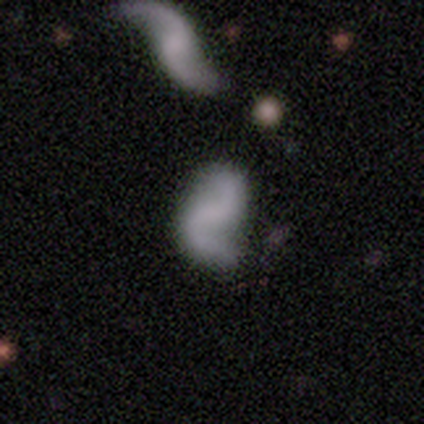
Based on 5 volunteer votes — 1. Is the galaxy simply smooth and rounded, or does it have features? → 80% featured or disk, 20% star or artifact, 0% smooth.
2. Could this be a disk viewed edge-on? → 100% no, 0% yes.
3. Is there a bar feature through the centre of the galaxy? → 75% no, 25% strong, 0% weak.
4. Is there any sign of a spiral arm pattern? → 50% yes (tied), 50% no (tied).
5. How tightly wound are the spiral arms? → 50% medium (tied), 50% loose (tied), 0% tight.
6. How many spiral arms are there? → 100% 2, 0% 1, 0% 3, 0% 4, 0% more than 4, 0% can't tell.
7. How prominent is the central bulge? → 75% none, 25% moderate, 0% dominant, 0% large, 0% small.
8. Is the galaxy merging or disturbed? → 50% none, 25% minor disturbance, 25% major disturbance, 0% merger.